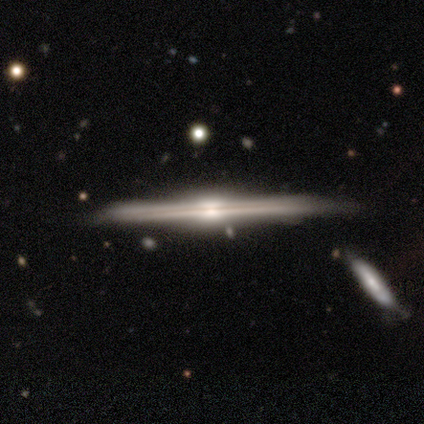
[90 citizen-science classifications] A featured or disk galaxy (92%) viewed edge-on (100%) with a rounded central bulge (78%).

Vote fractions:
- Smooth or featured? featured or disk: 92% / smooth: 4% / star or artifact: 3%
- Edge-on disk? yes: 100% / no: 0%
- Edge-on bulge? rounded: 78% / boxy: 19% / none: 2%
- Merging? none: 75% / minor disturbance: 15% / merger: 8% / major disturbance: 2%